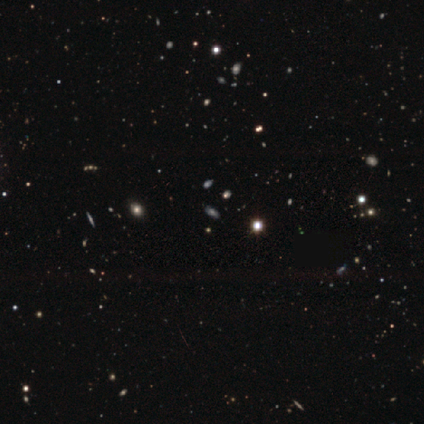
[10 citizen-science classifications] A star or artifact, not a galaxy (50%).

Vote fractions:
- Smooth or featured? star or artifact: 50% / featured or disk: 30% / smooth: 20%